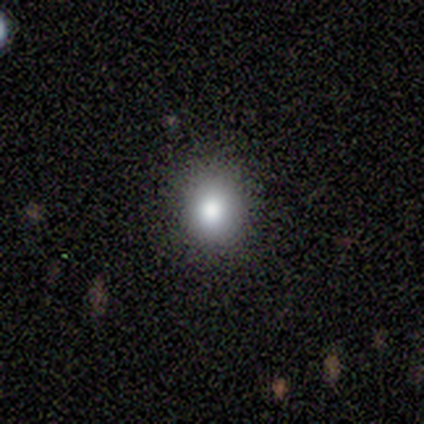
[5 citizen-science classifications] Volunteers were most divided on "how rounded": in between: 60%, round: 40%, cigar-shaped: 0%. More confident: smooth or featured — smooth (100%); merging — none (100%).